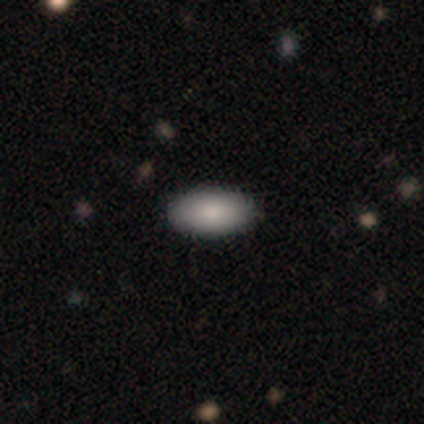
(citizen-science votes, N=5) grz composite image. It shows a smooth galaxy with no disk features (80%) that is in between round and cigar-shaped (75%). Merging: none (75%).